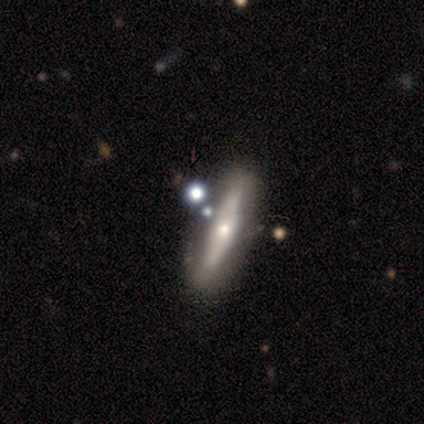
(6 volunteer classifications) Q: Smooth or featured?
A: featured or disk (67%); runner-up: smooth (33%)
Q: Edge-on disk?
A: yes (75%); runner-up: no (25%)
Q: Edge-on bulge?
A: rounded (100%)
Q: Merging?
A: none (50%); runner-up: minor disturbance (33%)